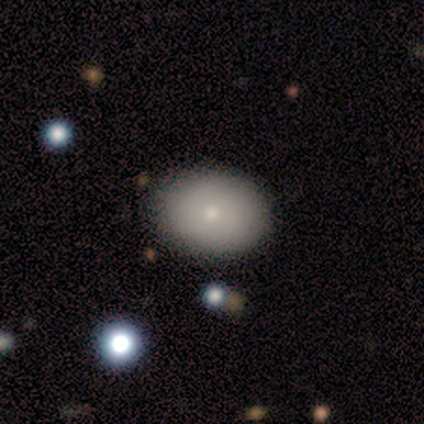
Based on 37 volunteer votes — A smooth galaxy with no disk features (76%) that is in between round and cigar-shaped (61%). Merging: none (92%).